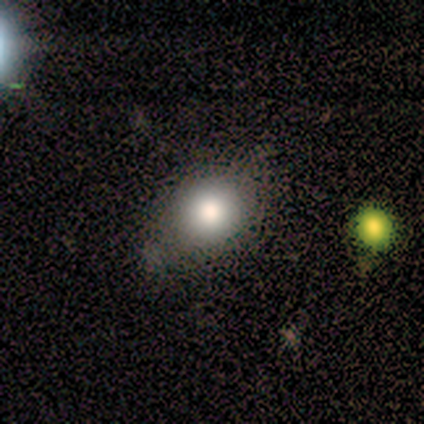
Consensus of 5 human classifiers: Overall: smooth (80%). How rounded: round (75%). Merging: none (75%).